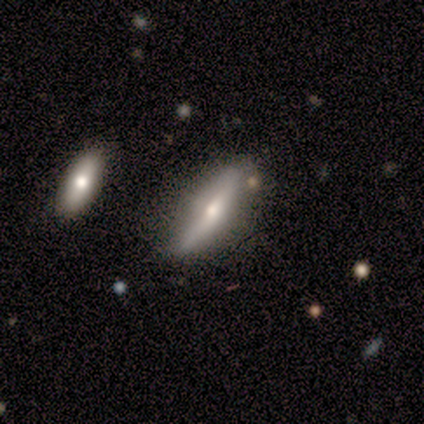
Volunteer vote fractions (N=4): Volunteers were most divided on "smooth or featured" (2-way tie): smooth: 50%, featured or disk: 50%, star or artifact: 0%. More confident: how rounded — cigar-shaped (100%); merging — none (75%).